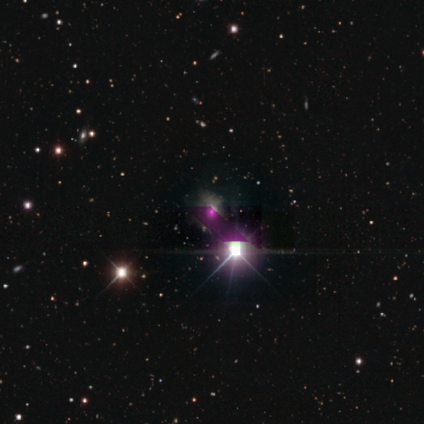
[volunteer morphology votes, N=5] A star or artifact, not a galaxy (100%).

Vote fractions:
- Smooth or featured? star or artifact: 100% / smooth: 0% / featured or disk: 0%